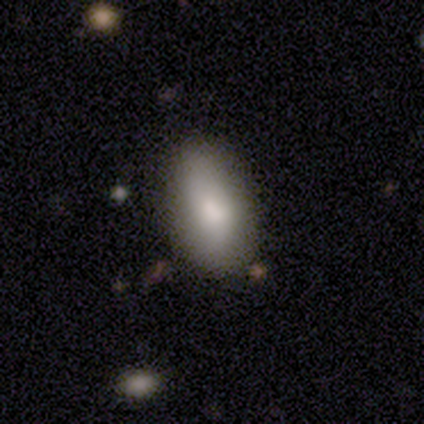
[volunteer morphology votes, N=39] Smooth or featured? smooth (74%)
How rounded? in between (93%)
Merging? none (78%)